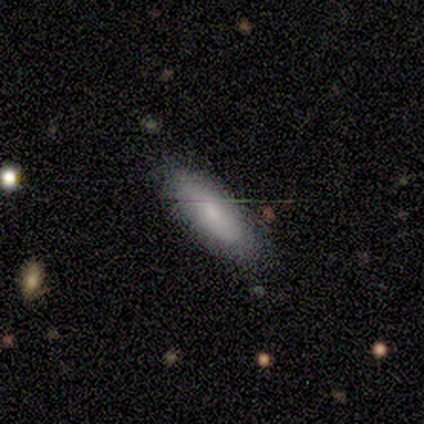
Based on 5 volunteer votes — smooth_or_featured: smooth (p=0.60) [alt: featured or disk p=0.40]
how_rounded: in between (p=1.00)
merging: none (p=0.80) [alt: minor disturbance p=0.20]